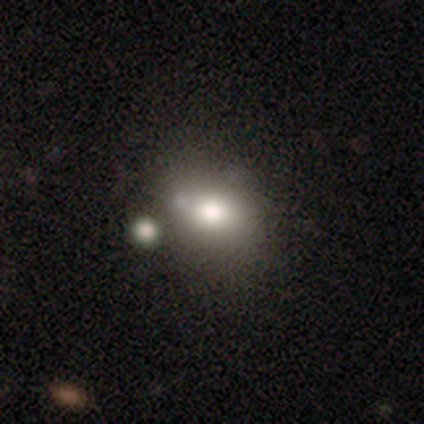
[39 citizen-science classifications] Smooth or featured? 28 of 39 (72%) said smooth. How rounded? 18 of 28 (64%) said in between. Merging? 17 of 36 (47%) said none.